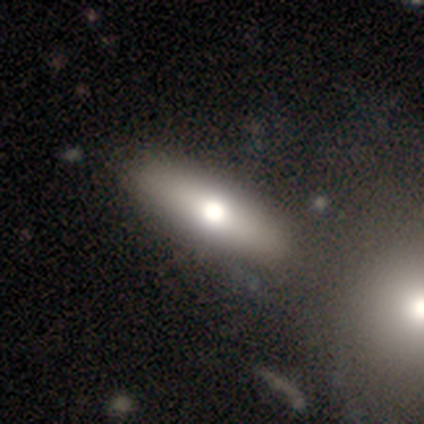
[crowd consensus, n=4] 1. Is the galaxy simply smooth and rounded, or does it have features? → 75% featured or disk, 25% smooth, 0% star or artifact.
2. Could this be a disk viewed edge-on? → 67% yes, 33% no.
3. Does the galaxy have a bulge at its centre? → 50% none (tied), 50% rounded (tied), 0% boxy.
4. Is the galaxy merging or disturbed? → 100% none, 0% minor disturbance, 0% major disturbance, 0% merger.